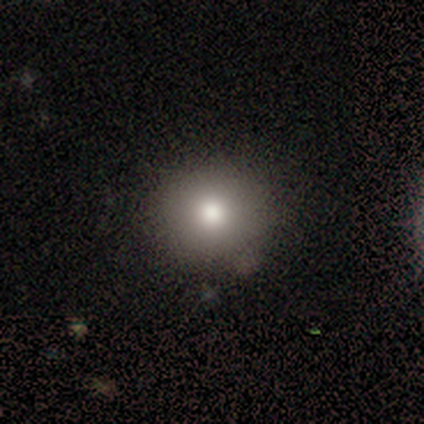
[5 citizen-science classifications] smooth-or-featured: smooth: 100% | featured or disk: 0% | star or artifact: 0%
  how-rounded: round: 80% | in between: 20% | cigar-shaped: 0%
  merging: none: 80% | minor disturbance: 20% | major disturbance: 0% | merger: 0%